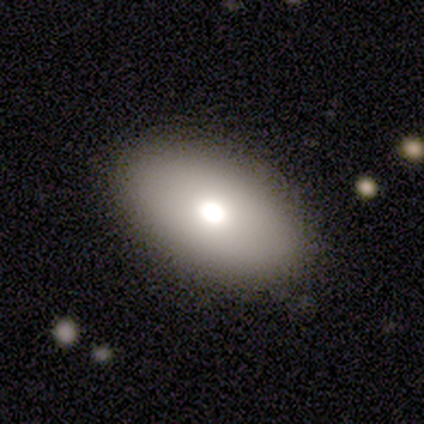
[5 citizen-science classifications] A smooth galaxy with no disk features (60%) that is in between round and cigar-shaped (100%).

Vote fractions:
- Smooth or featured? smooth: 60% / featured or disk: 40% / star or artifact: 0%
- How rounded? in between: 100% / round: 0% / cigar-shaped: 0%
- Merging? none: 100% / minor disturbance: 0% / major disturbance: 0% / merger: 0%